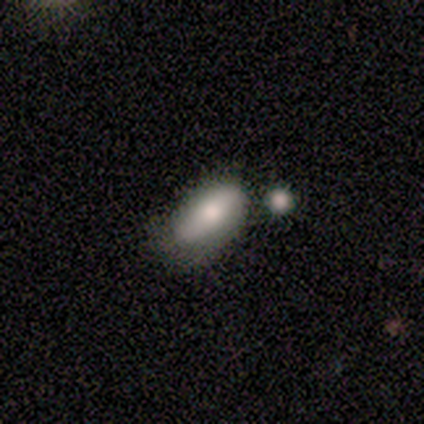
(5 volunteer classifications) A smooth galaxy with no disk features (100%) that is in between round and cigar-shaped (80%). Merging: minor disturbance (40%, tied with merger).